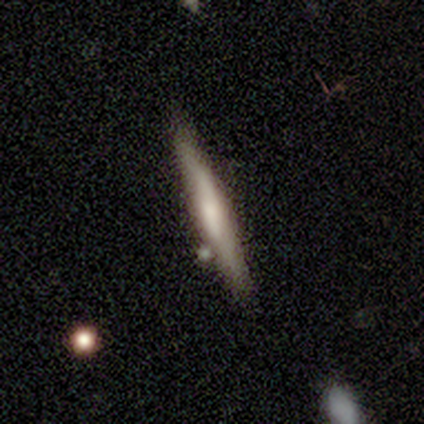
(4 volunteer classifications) This appears to be a smooth galaxy with no disk features (50%, tied with featured or disk) that is cigar-shaped (100%). Merging: none (50%).